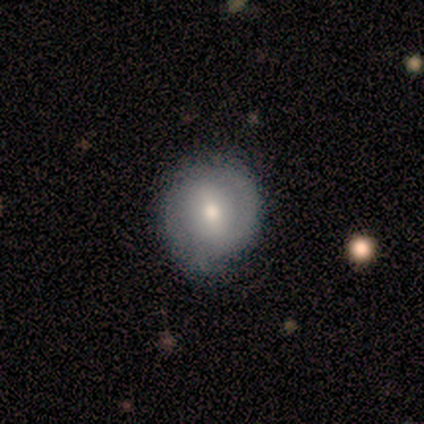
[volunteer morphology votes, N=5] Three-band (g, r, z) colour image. It shows a smooth galaxy with no disk features (80%) that is round (75%). Merging: none (60%).